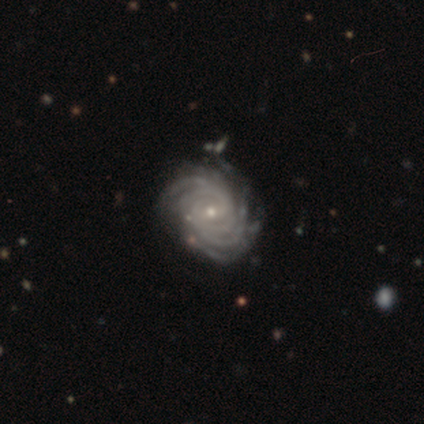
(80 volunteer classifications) Smooth or featured? 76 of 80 (95%) said featured or disk. Edge-on disk? 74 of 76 (97%) said no. Bar? 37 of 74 (50%) said weak. Spiral arms? 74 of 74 (100%) said yes. Spiral winding? 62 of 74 (84%) said tight. Spiral arm count? 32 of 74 (43%) said more than 4. Bulge size? 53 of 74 (72%) said small. Merging? 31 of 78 (40%) said none.